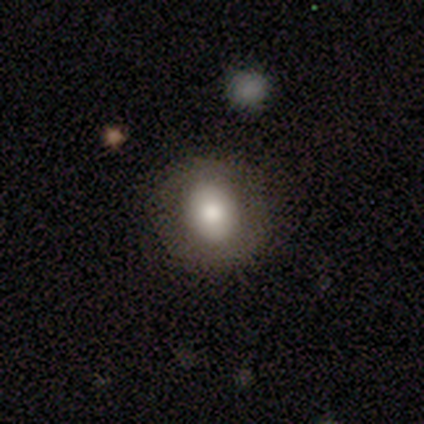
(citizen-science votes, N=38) Volunteers were most divided on "how rounded": round: 64%, in between: 36%, cigar-shaped: 0%. More confident: merging — none (80%); smooth or featured — smooth (66%).